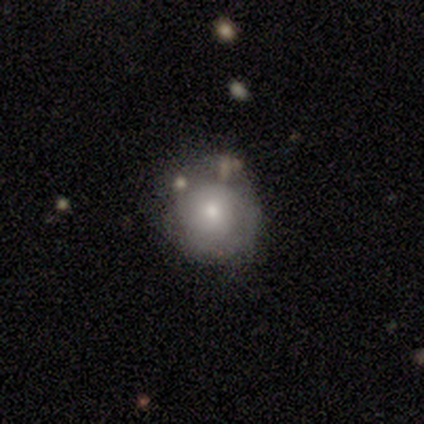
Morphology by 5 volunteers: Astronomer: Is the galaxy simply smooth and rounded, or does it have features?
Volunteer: smooth — 80%.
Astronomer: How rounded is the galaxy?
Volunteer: round — 100%.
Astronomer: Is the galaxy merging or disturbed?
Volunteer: minor disturbance — 60% (runner-up: none, 40%).